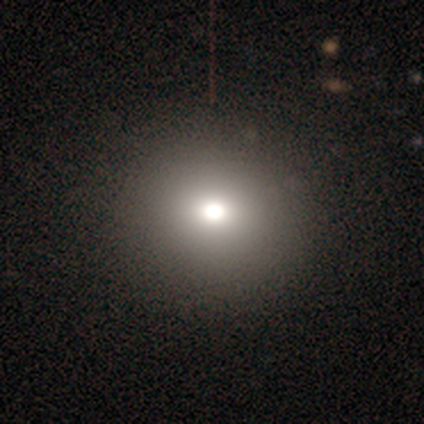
smooth-or-featured: smooth: 58% | featured or disk: 25% | star or artifact: 17%
  how-rounded: round: 100% | in between: 0% | cigar-shaped: 0%
  merging: none: 100% | minor disturbance: 0% | major disturbance: 0% | merger: 0%